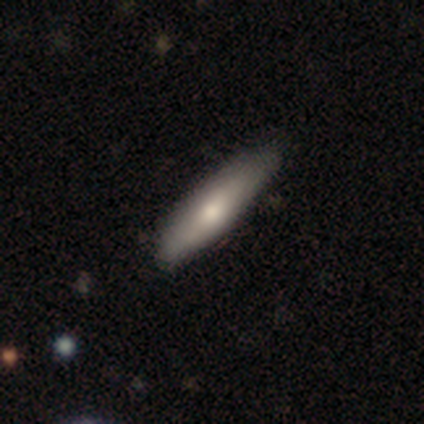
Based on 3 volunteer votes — Smooth or featured?
  - featured or disk: 67% *
  - smooth: 33%
  - star or artifact: 0%
Edge-on disk?
  - yes: 50% * (tied)
  - no: 50% * (tied)
Edge-on bulge?
  - rounded: 100% *
  - boxy: 0%
  - none: 0%
Merging?
  - none: 100% *
  - minor disturbance: 0%
  - major disturbance: 0%
  - merger: 0%